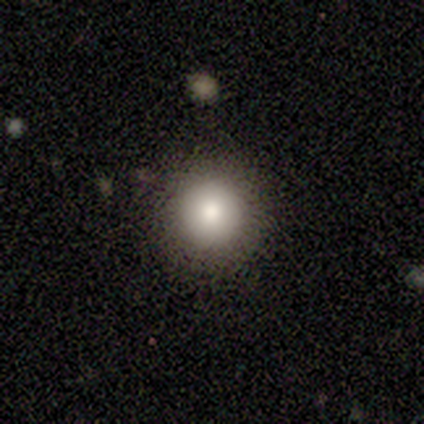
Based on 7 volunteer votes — This is possibly a smooth galaxy (57%). How rounded: clearly round (100%). Merging: clearly none (100%).